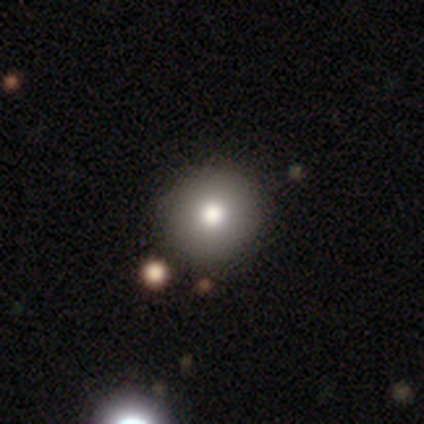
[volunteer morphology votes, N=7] This appears to be a star or artifact, not a galaxy (57%).